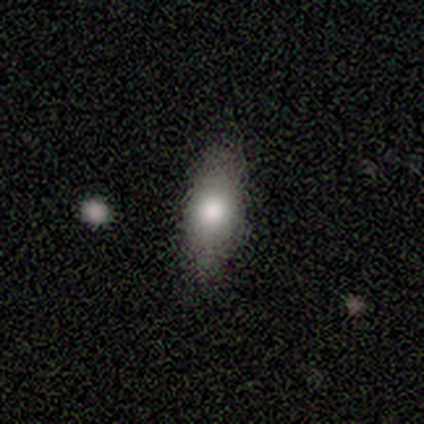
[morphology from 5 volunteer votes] A smooth galaxy with no disk features (100%) that is in between round and cigar-shaped (80%). Merging: none (100%).